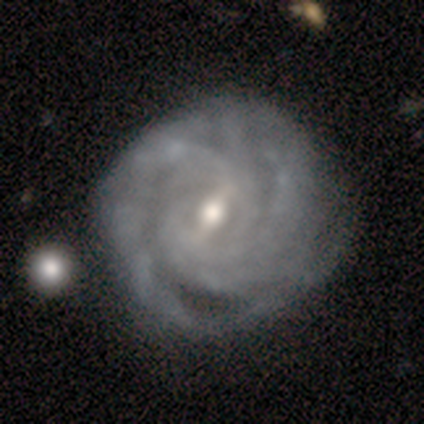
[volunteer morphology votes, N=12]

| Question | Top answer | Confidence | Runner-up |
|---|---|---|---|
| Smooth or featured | featured or disk | 83% | smooth (8%) |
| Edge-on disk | no | 100% | — |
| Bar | strong | 50% | weak (40%) |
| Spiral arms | yes | 100% | — |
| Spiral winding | tight | 80% | medium (10%) |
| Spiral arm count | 4 | 40% | can't tell (30%) |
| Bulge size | moderate | 70% | small (20%) |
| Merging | none | 64% | minor disturbance (36%) |